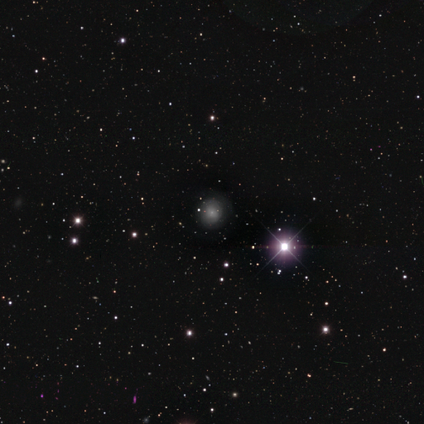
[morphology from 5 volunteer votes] Overall: star or artifact (60%; smooth 40%).